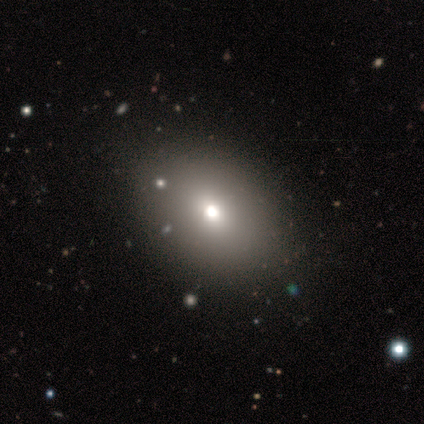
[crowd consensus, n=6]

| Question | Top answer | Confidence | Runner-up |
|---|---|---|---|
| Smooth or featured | smooth | 83% | featured or disk (17%) |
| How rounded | in between | 80% | round (20%) |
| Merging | none | 67% | minor disturbance (33%) |